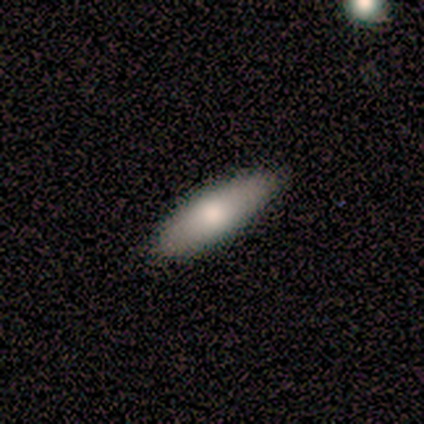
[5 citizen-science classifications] Smooth or featured: smooth — 80% (featured or disk — 20%)
How rounded: in between — 50% (tied with cigar-shaped — 50%)
Merging: none — 100%